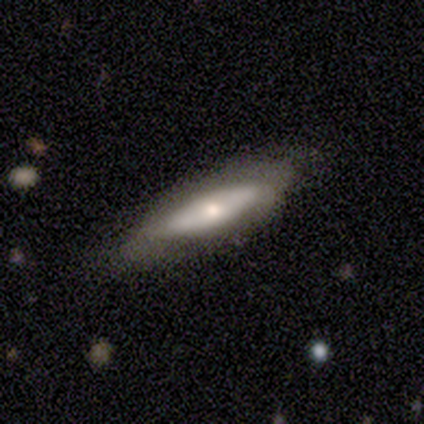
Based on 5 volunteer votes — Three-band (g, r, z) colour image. It shows a featured or disk galaxy (80%) viewed edge-on (100%) with a rounded central bulge (75%). Merging: minor disturbance (80%).